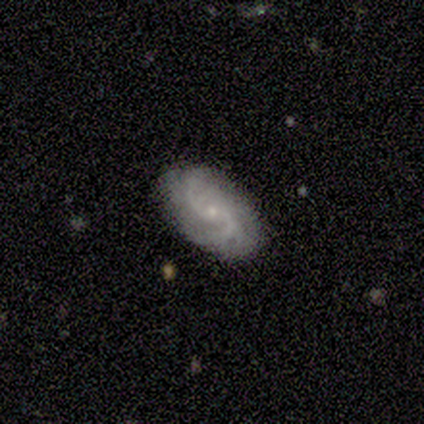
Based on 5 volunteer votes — A featured or disk galaxy (100%) with a weak bar (60%), 2 (25%, tied with 3, 4 and can't tell) medium (75%) spiral arms (80%) and a small central bulge (100%). Merging: none (100%).